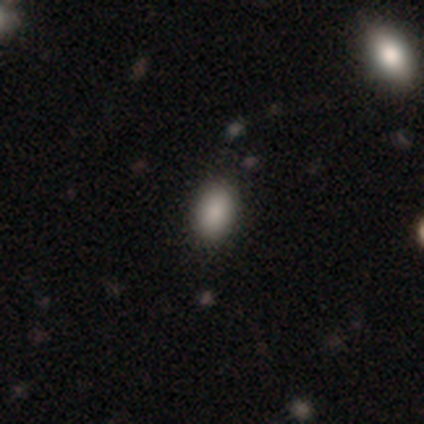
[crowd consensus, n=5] Morphology: type=smooth (80%); roundness=in between (100%); merging=none (100%).